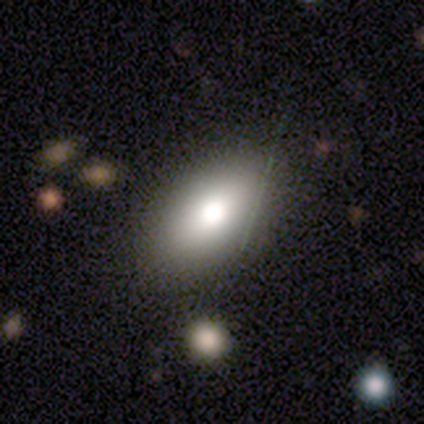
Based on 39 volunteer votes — smooth 69%, featured or disk 26%, star or artifact 5%. Down the decision tree: how rounded — in between (85%); merging — none (81%).